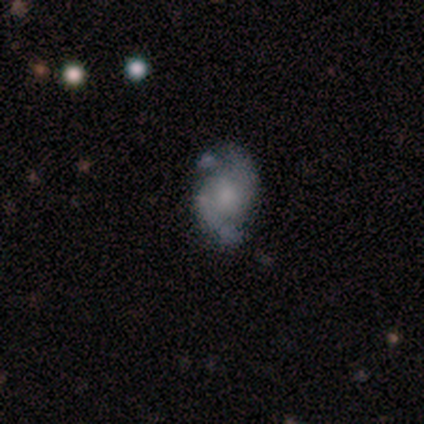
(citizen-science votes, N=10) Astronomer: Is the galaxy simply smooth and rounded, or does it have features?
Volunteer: featured or disk — 100%.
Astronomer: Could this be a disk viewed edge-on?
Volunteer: no — 100%.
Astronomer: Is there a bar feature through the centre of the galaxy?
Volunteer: no — 70%.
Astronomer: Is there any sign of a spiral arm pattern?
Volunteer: yes — 90%.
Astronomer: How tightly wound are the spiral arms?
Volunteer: tight — 56%.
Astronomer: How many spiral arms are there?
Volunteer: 2 — 100%.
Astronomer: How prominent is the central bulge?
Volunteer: small — 50%.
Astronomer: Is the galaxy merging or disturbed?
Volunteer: none — 70%.